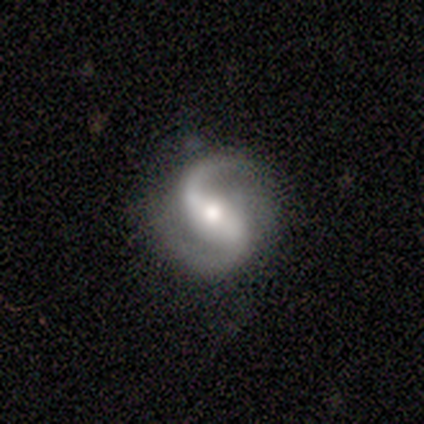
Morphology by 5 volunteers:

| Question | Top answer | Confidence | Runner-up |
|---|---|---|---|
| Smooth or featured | featured or disk | 80% | star or artifact (20%) |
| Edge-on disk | no | 100% | — |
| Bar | strong | 75% | weak (25%) |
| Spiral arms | yes | 100% | — |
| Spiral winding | loose | 50% | tight (25%) |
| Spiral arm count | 2 | 100% | — |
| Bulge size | moderate | 75% | small (25%) |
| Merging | none | 75% | minor disturbance (25%) |